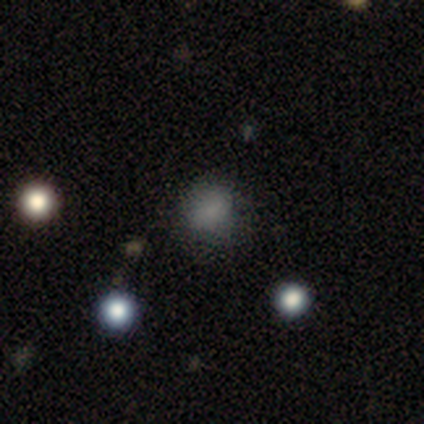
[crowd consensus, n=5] Smooth or featured? 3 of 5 (60%) said smooth. How rounded? 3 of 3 (100%) said round. Merging? 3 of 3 (100%) said none.